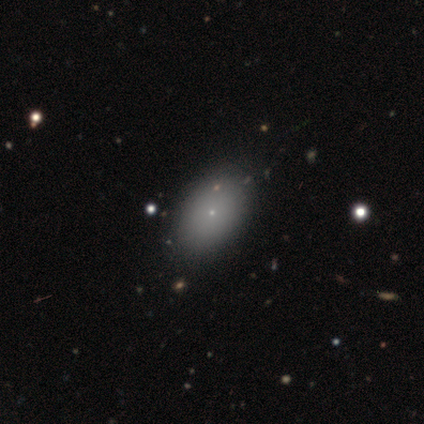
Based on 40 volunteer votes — This appears to be a smooth galaxy with no disk features (70%) that is in between round and cigar-shaped (93%). Merging: none (100%).